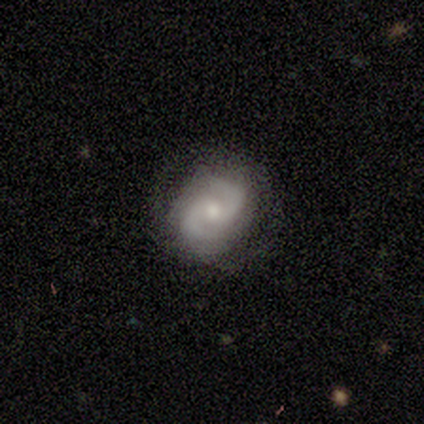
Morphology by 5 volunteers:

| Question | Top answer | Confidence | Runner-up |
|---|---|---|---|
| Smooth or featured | featured or disk | 60% | smooth (40%) |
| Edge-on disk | no | 100% | — |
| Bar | strong | 33% | tied: weak (33%), no (33%) |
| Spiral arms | yes | 100% | — |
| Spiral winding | medium | 67% | loose (33%) |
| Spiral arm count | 2 | 100% | — |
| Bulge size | moderate | 67% | small (33%) |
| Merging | none | 100% | — |